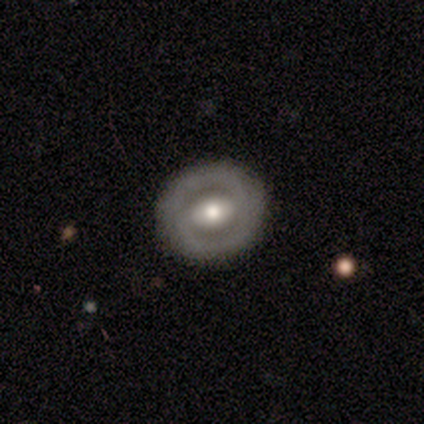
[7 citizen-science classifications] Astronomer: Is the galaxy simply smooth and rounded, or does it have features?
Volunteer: smooth — 43%, tied with featured or disk at 43%.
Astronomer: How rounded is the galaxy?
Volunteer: round — 100%.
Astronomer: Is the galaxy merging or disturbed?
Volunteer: none — 83%.